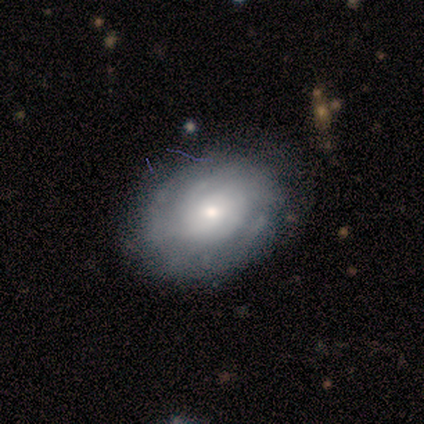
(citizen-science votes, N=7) Smooth or featured: featured or disk — 71% (smooth — 29%)
Edge-on disk: no — 100%
Bar: no — 80% (weak — 20%)
Spiral arms: yes — 100%
Spiral winding: tight — 100%
Spiral arm count: can't tell — 60% (1 — 20%)
Bulge size: small — 80% (moderate — 20%)
Merging: none — 86% (minor disturbance — 14%)